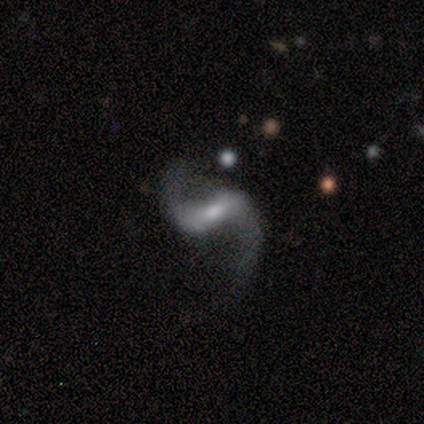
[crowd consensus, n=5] A featured or disk galaxy (100%) with a weak bar (80%), 2 (100%) loose (100%) spiral arms (80%) and a small central bulge (60%). Merging: none (60%).